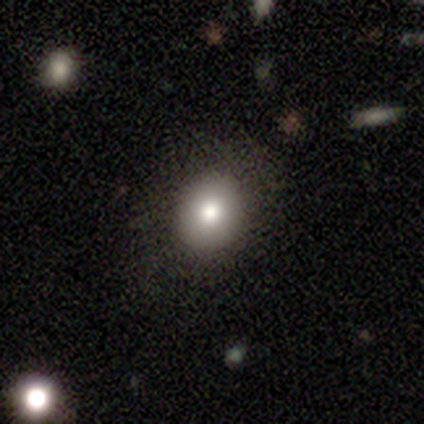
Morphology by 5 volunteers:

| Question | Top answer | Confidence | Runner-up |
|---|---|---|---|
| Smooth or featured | smooth | 100% | — |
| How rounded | in between | 60% | round (40%) |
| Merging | none | 100% | — |